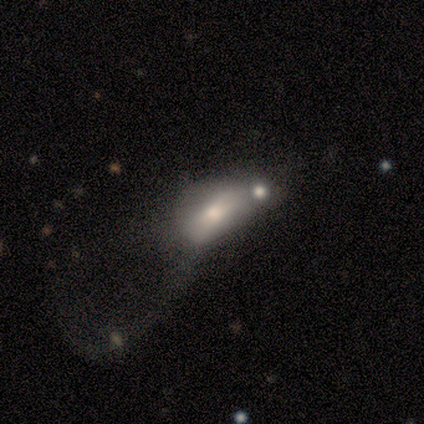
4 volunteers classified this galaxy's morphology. This is possibly a smooth galaxy (50%, tied with featured or disk). How rounded: clearly in between (100%). Merging: likely merger (75%).